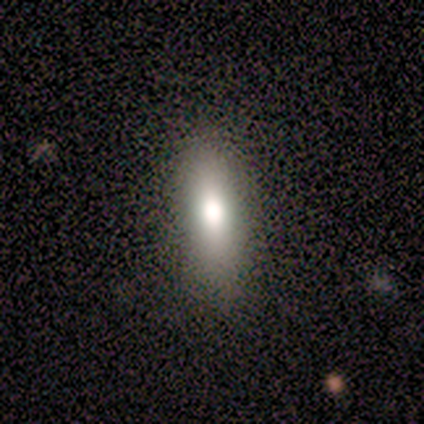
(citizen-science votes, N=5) Smooth or featured?
  - smooth: 80% *
  - featured or disk: 20%
  - star or artifact: 0%
How rounded?
  - in between: 50% * (tied)
  - cigar-shaped: 50% * (tied)
  - round: 0%
Merging?
  - none: 100% *
  - minor disturbance: 0%
  - major disturbance: 0%
  - merger: 0%